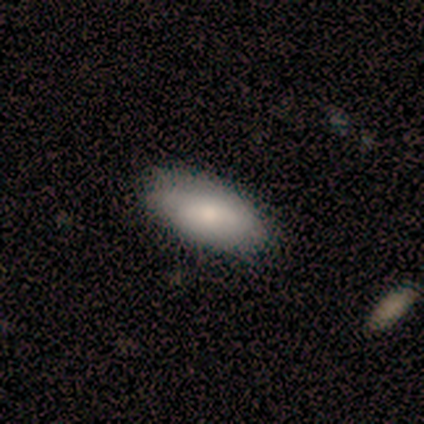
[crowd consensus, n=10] smooth-or-featured: smooth: 80% | featured or disk: 20% | star or artifact: 0%
  how-rounded: in between: 88% | cigar-shaped: 12% | round: 0%
  merging: none: 60% | minor disturbance: 40% | major disturbance: 0% | merger: 0%